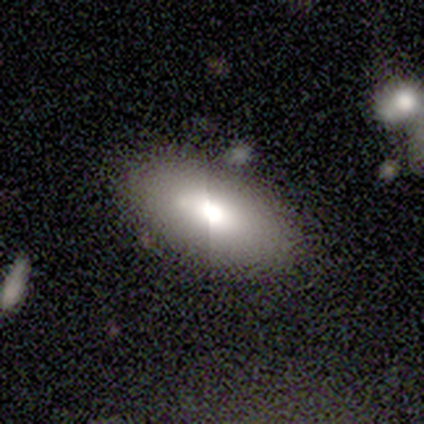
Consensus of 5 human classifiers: Smooth or featured: smooth — 60% (featured or disk — 40%)
How rounded: in between — 100%
Merging: none — 80% (minor disturbance — 20%)